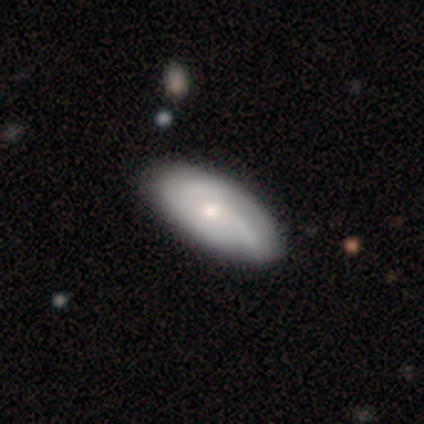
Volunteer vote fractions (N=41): A smooth galaxy with no disk features (56%) that is in between round and cigar-shaped (100%).

Vote fractions:
- Smooth or featured? smooth: 56% / featured or disk: 41% / star or artifact: 2%
- How rounded? in between: 100% / round: 0% / cigar-shaped: 0%
- Merging? none: 82% / minor disturbance: 10% / major disturbance: 8% / merger: 0%